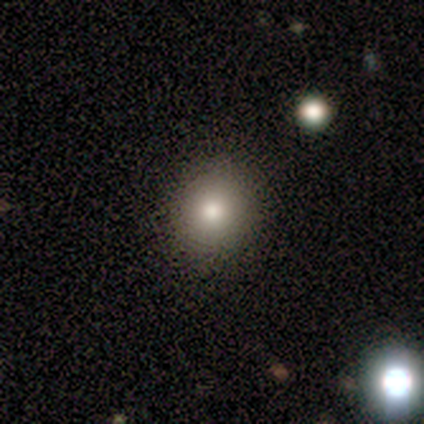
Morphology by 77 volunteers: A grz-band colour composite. It shows a smooth galaxy with no disk features (87%) that is round (85%). Merging: none (47%).